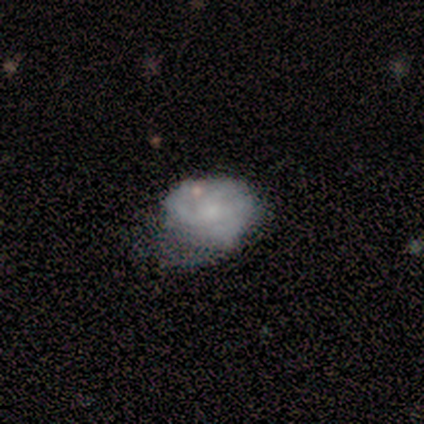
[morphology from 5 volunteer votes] A smooth galaxy with no disk features (40%, tied with featured or disk) that is in between round and cigar-shaped (100%). Merging: none (50%).